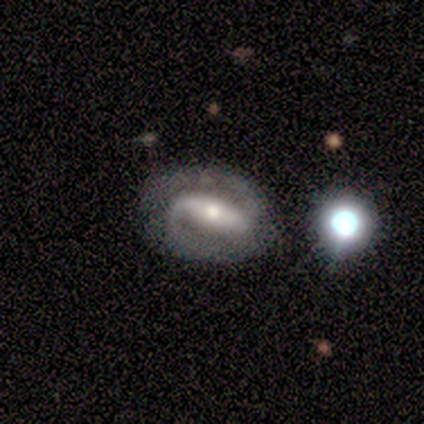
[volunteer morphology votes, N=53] type=featured or disk (87%); edge-on=no (100%); bar=strong (80%); spiral arms=yes (93%); winding=medium (44%); arm count=2 (98%); bulge=moderate (48%); merging=none (69%).